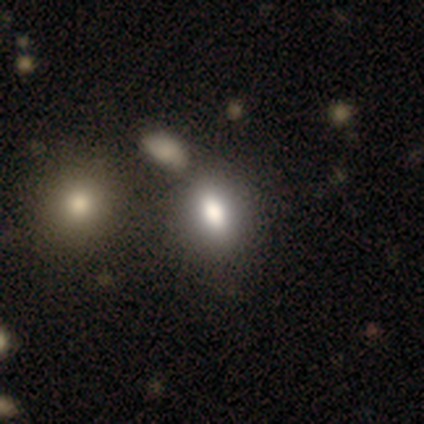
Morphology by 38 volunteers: type=smooth (74%); roundness=in between (68%); merging=none (37%).